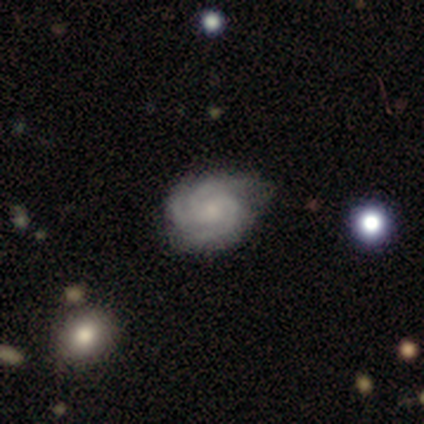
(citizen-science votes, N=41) Smooth or featured: featured or disk — 90% (smooth — 10%)
Edge-on disk: no — 100%
Bar: no — 70% (weak — 27%)
Spiral arms: yes — 97% (no — 3%)
Spiral winding: tight — 67% (medium — 31%)
Spiral arm count: 3 — 83% (2 — 8%)
Bulge size: small — 57% (moderate — 32%)
Merging: none — 56% (minor disturbance — 39%)